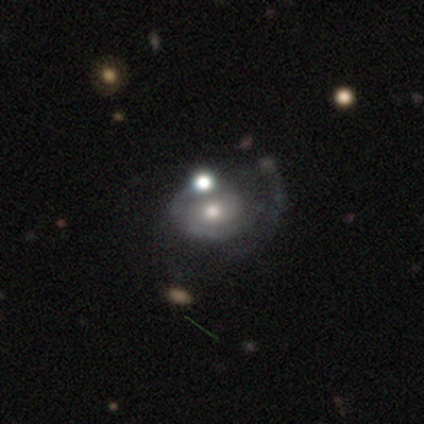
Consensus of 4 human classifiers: smooth_or_featured: featured or disk (p=0.50) [alt: smooth p=0.25]
disk_edge_on: no (p=1.00)
bar: weak (p=1.00)
has_spiral_arms: yes (p=1.00)
spiral_winding: tight (p=1.00)
spiral_arm_count: 2 (p=0.50) [tied with: 3 p=0.50]
bulge_size: moderate (p=0.50) [tied with: small p=0.50]
merging: none (p=0.67) [alt: major disturbance p=0.33]